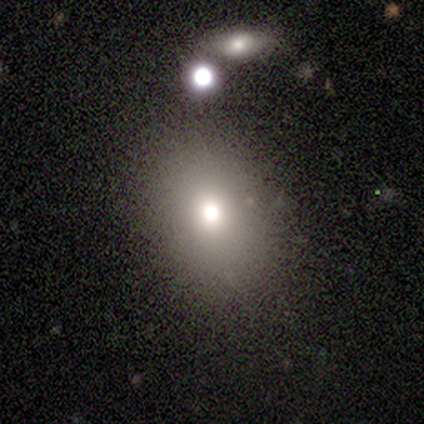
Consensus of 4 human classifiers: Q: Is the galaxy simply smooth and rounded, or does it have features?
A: smooth — 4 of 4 (100%).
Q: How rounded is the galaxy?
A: round — 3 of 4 (75%).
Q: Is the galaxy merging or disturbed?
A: none — 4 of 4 (100%).